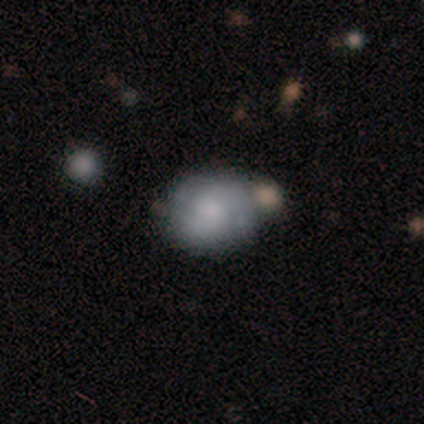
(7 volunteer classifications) Volunteers were most divided on "smooth or featured": smooth: 57%, featured or disk: 43%, star or artifact: 0%. More confident: how rounded — round (75%); merging — none (71%).